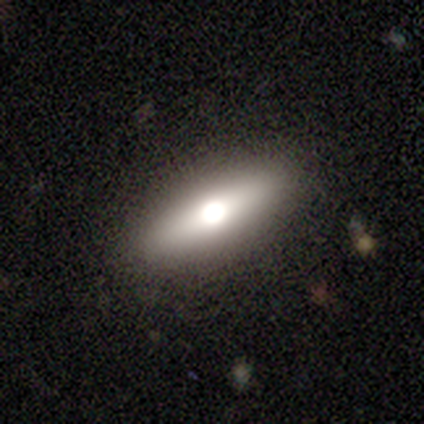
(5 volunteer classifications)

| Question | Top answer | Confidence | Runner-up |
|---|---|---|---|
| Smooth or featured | smooth | 40% | tied: featured or disk (40%) |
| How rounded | cigar-shaped | 100% | — |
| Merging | none | 75% | minor disturbance (25%) |